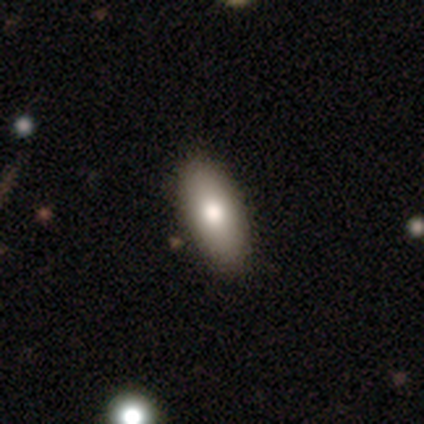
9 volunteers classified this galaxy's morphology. Overall: smooth (67%). How rounded: in between (100%). Merging: none (88%).